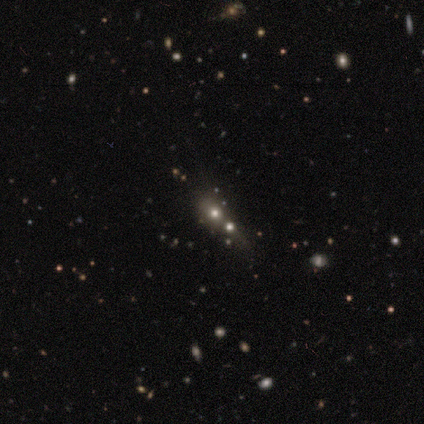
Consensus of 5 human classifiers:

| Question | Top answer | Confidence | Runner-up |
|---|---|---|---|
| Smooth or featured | star or artifact | 60% | smooth (40%) |